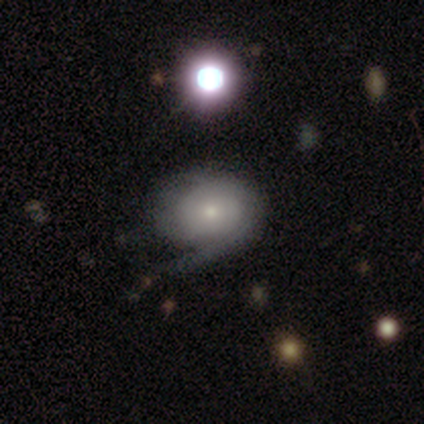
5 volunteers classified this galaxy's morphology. Q: Smooth or featured?
A: featured or disk (100%)
Q: Edge-on disk?
A: no (100%)
Q: Bar?
A: no (80%); runner-up: weak (20%)
Q: Spiral arms?
A: yes (60%); runner-up: no (40%)
Q: Spiral winding?
A: tight (67%); runner-up: loose (33%)
Q: Spiral arm count?
A: 1 (33%); tied with: 3 (33%); can't tell (33%)
Q: Bulge size?
A: small (100%)
Q: Merging?
A: none (40%); runner-up: minor disturbance (20%)